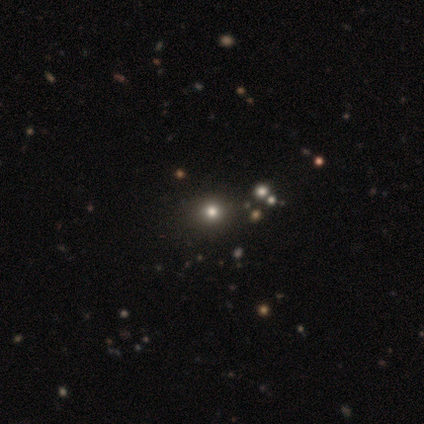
Q: Smooth or featured?
A: smooth (80%); runner-up: star or artifact (20%)
Q: How rounded?
A: round (100%)
Q: Merging?
A: none (100%)